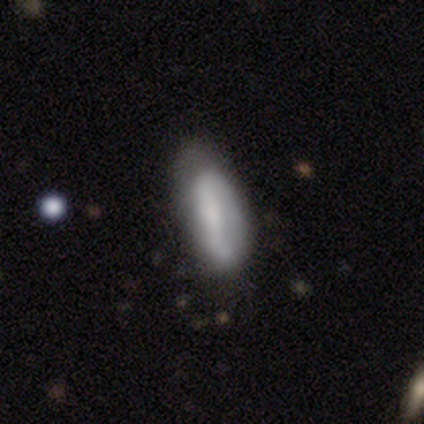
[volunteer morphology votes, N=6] A smooth galaxy with no disk features (83%) that is in between round and cigar-shaped (100%).

Vote fractions:
- Smooth or featured? smooth: 83% / featured or disk: 17% / star or artifact: 0%
- How rounded? in between: 100% / round: 0% / cigar-shaped: 0%
- Merging? none: 50% (tied) / minor disturbance: 50% (tied) / major disturbance: 0% / merger: 0%